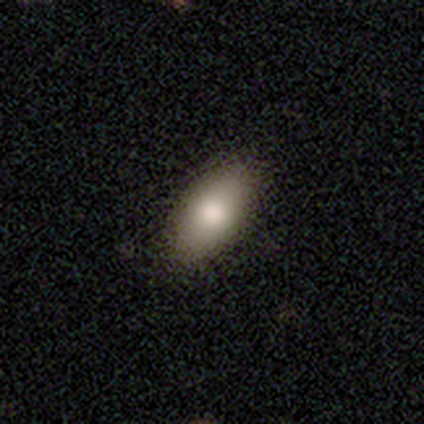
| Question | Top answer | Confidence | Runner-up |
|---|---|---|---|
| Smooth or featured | smooth | 76% | star or artifact (13%) |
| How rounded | in between | 90% | cigar-shaped (7%) |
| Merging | none | 73% | minor disturbance (3%) |